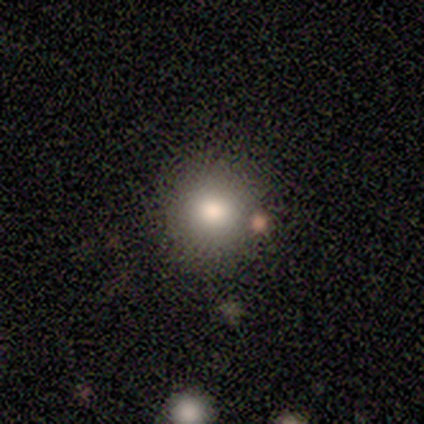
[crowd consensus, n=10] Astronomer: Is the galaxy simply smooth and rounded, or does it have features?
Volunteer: smooth — 90%.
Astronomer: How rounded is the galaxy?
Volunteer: round — 100%.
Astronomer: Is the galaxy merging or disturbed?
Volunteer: none — 89%.